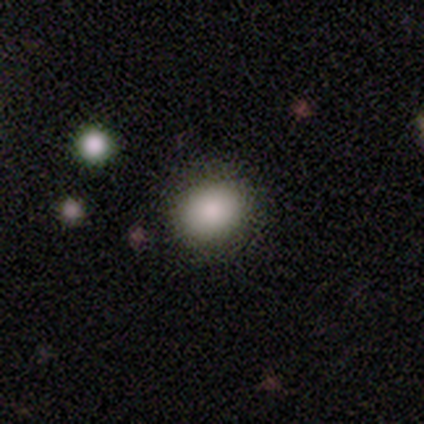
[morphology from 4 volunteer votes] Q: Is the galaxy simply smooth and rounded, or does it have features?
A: smooth — 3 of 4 (75%).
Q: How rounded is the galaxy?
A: round — 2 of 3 (67%).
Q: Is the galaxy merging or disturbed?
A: none — 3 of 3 (100%).